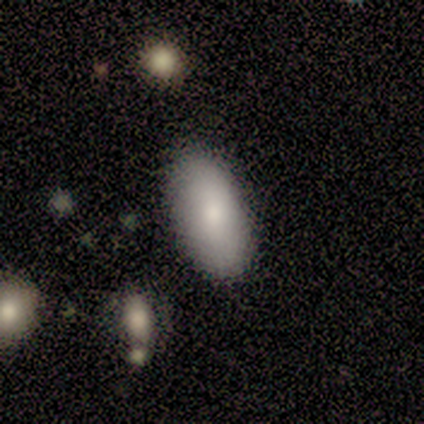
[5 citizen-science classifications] Smooth or featured? 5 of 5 (100%) said smooth. How rounded? 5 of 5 (100%) said in between. Merging? 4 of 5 (80%) said none.